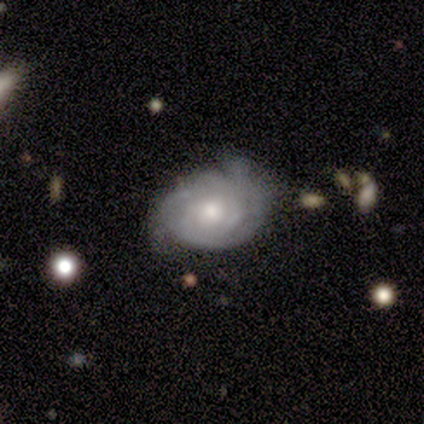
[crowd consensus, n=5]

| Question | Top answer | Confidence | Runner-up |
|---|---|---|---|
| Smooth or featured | featured or disk | 60% | smooth (20%) |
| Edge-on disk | no | 67% | yes (33%) |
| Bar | weak | 50% | tied: no (50%) |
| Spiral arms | yes | 100% | — |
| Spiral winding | tight | 50% | tied: medium (50%) |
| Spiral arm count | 2 | 50% | tied: can't tell (50%) |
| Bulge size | moderate | 50% | tied: small (50%) |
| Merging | none | 75% | minor disturbance (25%) |